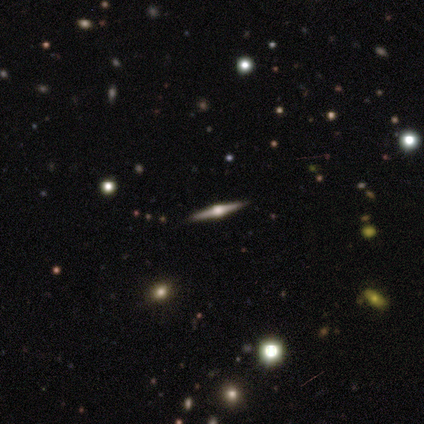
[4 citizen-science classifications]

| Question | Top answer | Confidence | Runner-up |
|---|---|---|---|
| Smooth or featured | featured or disk | 100% | — |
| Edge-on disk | yes | 100% | — |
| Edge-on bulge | rounded | 100% | — |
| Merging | none | 100% | — |